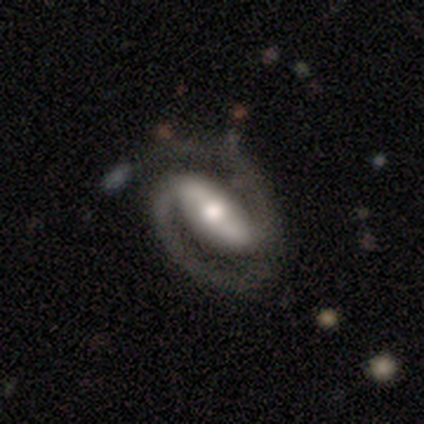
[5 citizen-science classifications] A featured or disk galaxy (100%) with a strong bar (80%), 2 (100%) medium (60%) spiral arms (100%) and a large central bulge (40%, tied with moderate).

Vote fractions:
- Smooth or featured? featured or disk: 100% / smooth: 0% / star or artifact: 0%
- Edge-on disk? no: 100% / yes: 0%
- Bar? strong: 80% / no: 20% / weak: 0%
- Spiral arms? yes: 100% / no: 0%
- Spiral winding? medium: 60% / tight: 20% / loose: 20%
- Spiral arm count? 2: 100% / 1: 0% / 3: 0% / 4: 0% / more than 4: 0% / can't tell: 0%
- Bulge size? large: 40% (tied) / moderate: 40% (tied) / small: 20% / dominant: 0% / none: 0%
- Merging? none: 80% / minor disturbance: 20% / major disturbance: 0% / merger: 0%